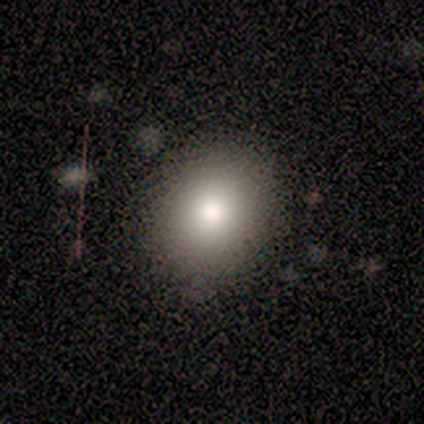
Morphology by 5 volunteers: smooth-or-featured: smooth: 60% | featured or disk: 40% | star or artifact: 0%
  how-rounded: round: 67% | in between: 33% | cigar-shaped: 0%
  merging: none: 80% | merger: 20% | minor disturbance: 0% | major disturbance: 0%